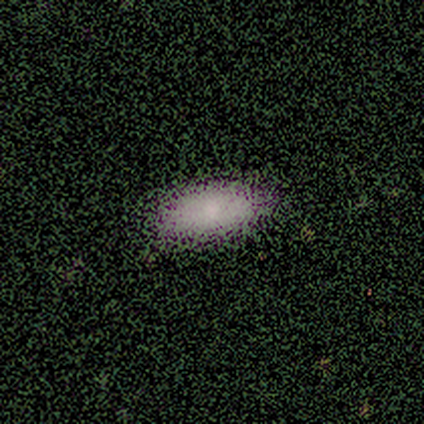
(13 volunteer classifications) Smooth or featured? smooth (85%)
How rounded? in between (73%)
Merging? none (69%)